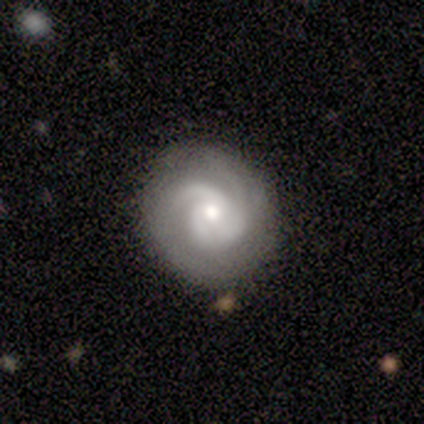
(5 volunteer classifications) A featured or disk galaxy (80%) with a weak bar (50%, tied with no), 3 (75%) tight (100%) spiral arms (100%) and a small central bulge (50%). Merging: none (60%).